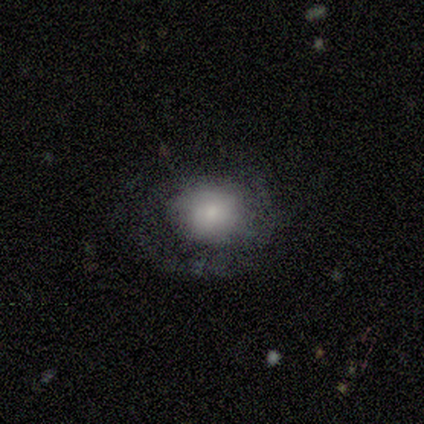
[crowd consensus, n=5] This is clearly a featured or disk galaxy (80%). It is likely not viewed edge-on (75%). Bar: clearly no (100%). Spiral arm pattern: likely yes (67%). Spiral arm count: possibly 2 (50%, tied with can't tell). Spiral winding: possibly tight (50%, tied with loose). Central bulge: likely large (67%). Merging: likely none (60%).